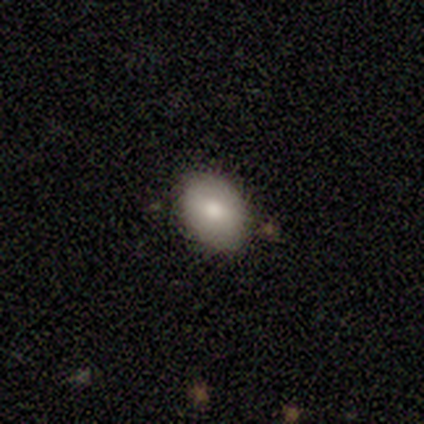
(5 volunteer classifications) A smooth galaxy with no disk features (100%) that is in between round and cigar-shaped (80%). Merging: none (80%).